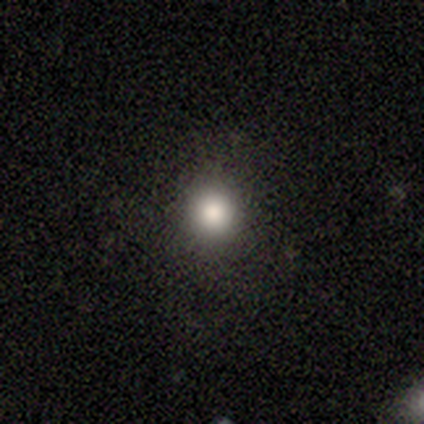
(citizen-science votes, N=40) Smooth or featured? smooth (85%)
How rounded? round (94%)
Merging? none (91%)